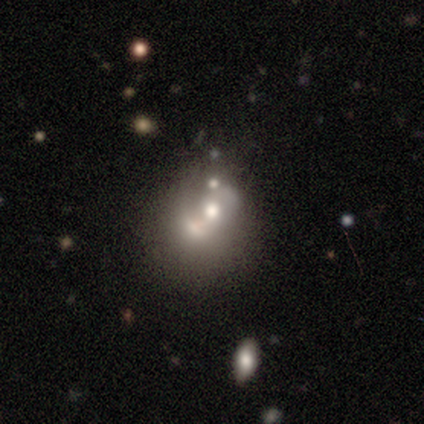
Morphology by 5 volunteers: Overall: smooth (40%, tied with featured or disk). How rounded: round (50%, tied with in between). Merging: merger (50%; minor disturbance 25%).